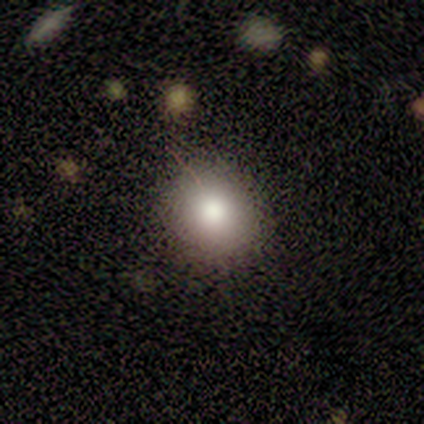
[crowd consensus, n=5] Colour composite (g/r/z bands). It shows a smooth galaxy with no disk features (60%) that is in between round and cigar-shaped (100%). Merging: none (80%).